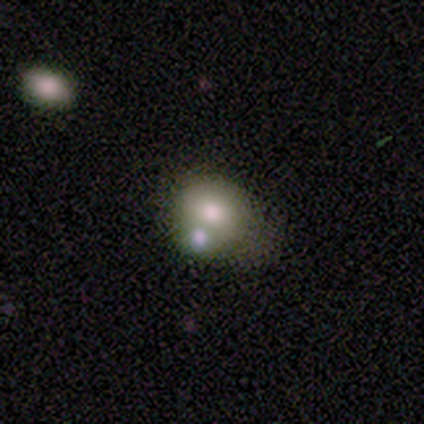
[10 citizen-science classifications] smooth_or_featured: smooth (p=0.80) [alt: featured or disk p=0.20]
how_rounded: round (p=0.88) [alt: in between p=0.12]
merging: none (p=0.50) [alt: merger p=0.40]